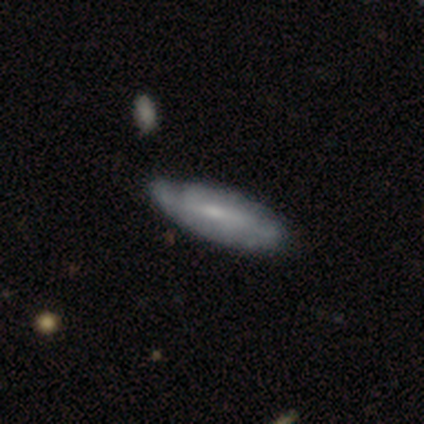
featured or disk 51%, smooth 46%, star or artifact 4%. Down the decision tree: edge-on disk — no (65%); bar — weak (39%, tied with no); spiral arms — yes (82%); spiral arm count — can't tell (57%); spiral winding — tight (57%); bulge size — small (61%); merging — none (62%).